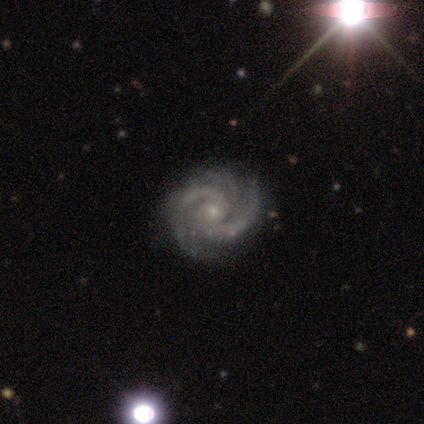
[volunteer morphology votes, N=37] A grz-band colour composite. It shows a featured or disk galaxy (97%) with no bar (67%), 2 (47%) tight (61%) spiral arms (100%) and a small central bulge (81%). Merging: none (56%).